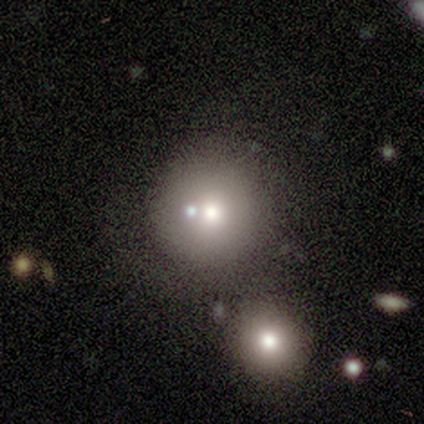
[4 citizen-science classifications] smooth 100%, featured or disk 0%, star or artifact 0%. Down the decision tree: how rounded — round (100%); merging — none (75%).